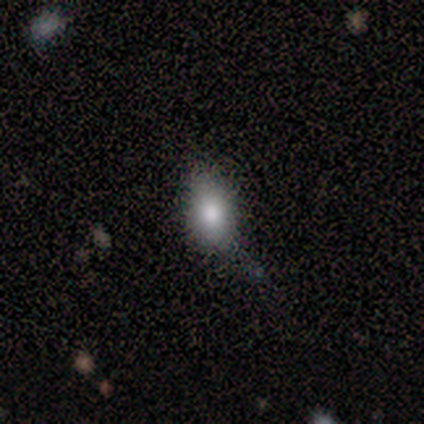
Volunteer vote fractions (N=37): This is likely a smooth galaxy (70%). How rounded: clearly in between (92%). Merging: likely none (60%).